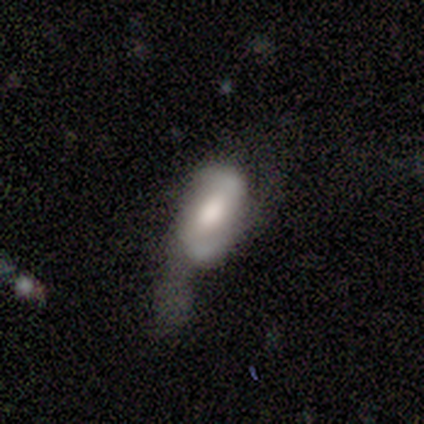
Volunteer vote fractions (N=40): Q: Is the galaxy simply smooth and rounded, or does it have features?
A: featured or disk — 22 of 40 (55%).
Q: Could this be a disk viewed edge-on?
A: no — 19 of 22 (86%).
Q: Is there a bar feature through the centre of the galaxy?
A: weak — 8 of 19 (42%, tied with no).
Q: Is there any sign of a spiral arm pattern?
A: yes — 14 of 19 (74%).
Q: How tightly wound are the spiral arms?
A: loose — 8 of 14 (57%).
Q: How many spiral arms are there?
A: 2 — 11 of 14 (79%).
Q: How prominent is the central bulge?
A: large — 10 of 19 (53%).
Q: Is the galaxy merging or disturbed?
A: major disturbance — 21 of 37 (57%).